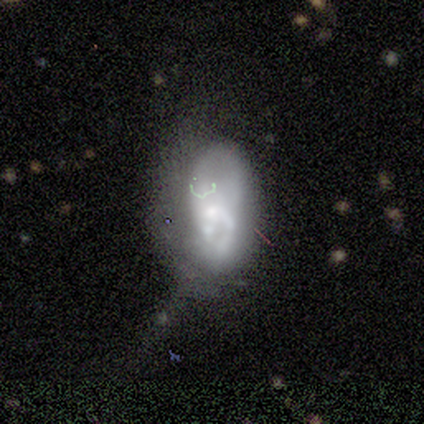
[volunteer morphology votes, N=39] Volunteers were most divided on "bulge size": small: 40%, moderate: 25%, none: 25%, dominant: 5%, large: 5%. More confident: edge-on disk — no (100%); bar — no (95%); spiral arms — no (70%); merging — major disturbance (55%); smooth or featured — featured or disk (51%).